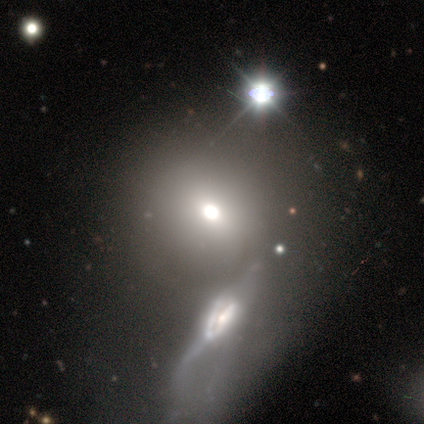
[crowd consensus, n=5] Q: Smooth or featured?
A: smooth (80%); runner-up: featured or disk (20%)
Q: How rounded?
A: round (100%)
Q: Merging?
A: none (60%); runner-up: merger (40%)